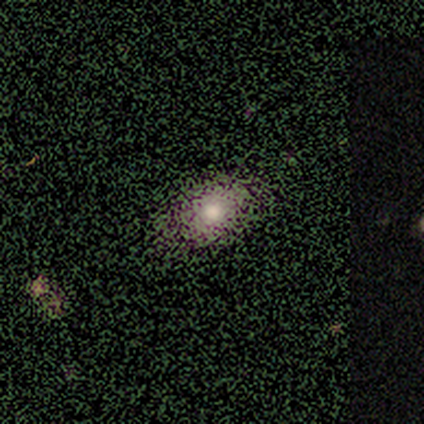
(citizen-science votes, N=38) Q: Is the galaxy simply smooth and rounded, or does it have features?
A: smooth — 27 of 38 (71%).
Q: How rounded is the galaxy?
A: in between — 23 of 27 (85%).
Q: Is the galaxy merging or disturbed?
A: none — 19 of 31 (61%).